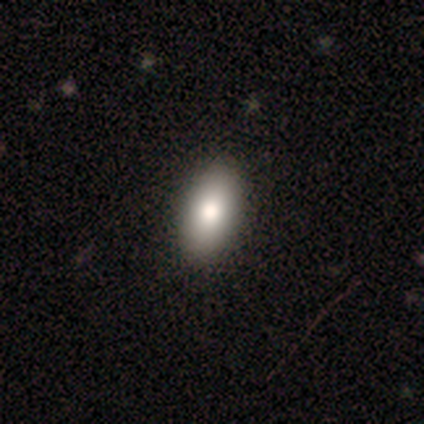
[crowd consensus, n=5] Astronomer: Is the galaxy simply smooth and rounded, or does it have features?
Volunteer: smooth — 80%.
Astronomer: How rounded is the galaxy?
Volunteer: in between — 100%.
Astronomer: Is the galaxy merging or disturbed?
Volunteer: none — 100%.